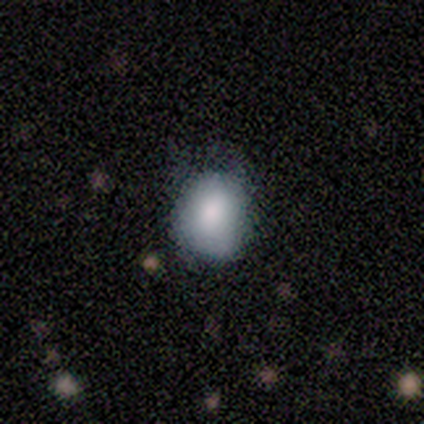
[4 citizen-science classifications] Smooth or featured: smooth — 75% (featured or disk — 25%)
How rounded: in between — 67% (round — 33%)
Merging: minor disturbance — 50% (tied with major disturbance — 50%)